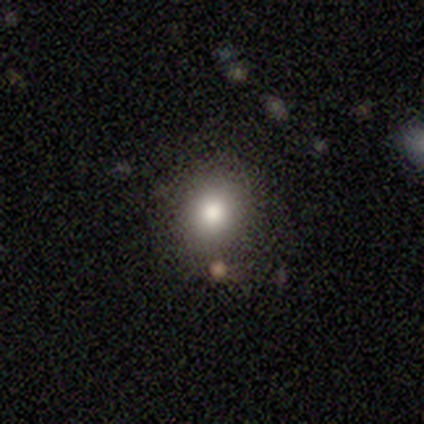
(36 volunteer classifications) Smooth or featured: smooth — 67% (star or artifact — 25%)
How rounded: round — 83% (in between — 17%)
Merging: none — 85% (minor disturbance — 11%)